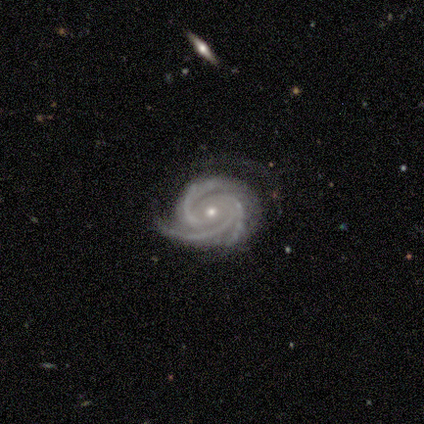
smooth-or-featured: featured or disk: 100% | smooth: 0% | star or artifact: 0%
  disk-edge-on: no: 80% | yes: 20%
    bar: no: 100% | strong: 0% | weak: 0%
    has-spiral-arms: yes: 100% | no: 0%
      spiral-winding: tight: 75% | medium: 25% | loose: 0%
      spiral-arm-count: 3: 100% | 1: 0% | 2: 0% | 4: 0% | more than 4: 0% | can't tell: 0%
    bulge-size: moderate: 50% (tied) | small: 50% (tied) | dominant: 0% | large: 0% | none: 0%
  merging: none: 80% | merger: 20% | minor disturbance: 0% | major disturbance: 0%